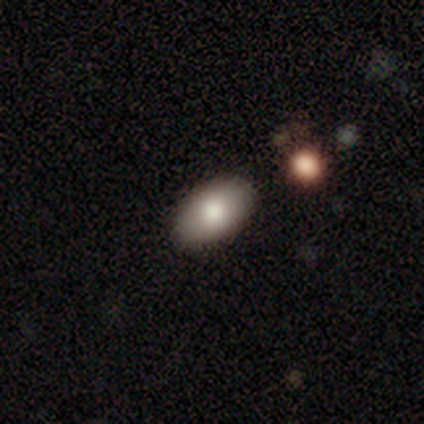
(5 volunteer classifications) This appears to be a smooth galaxy with no disk features (100%) that is in between round and cigar-shaped (100%). Merging: none (100%).